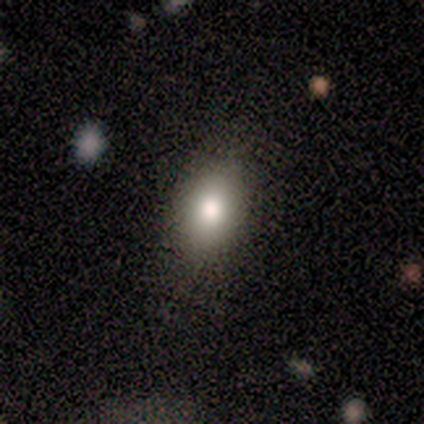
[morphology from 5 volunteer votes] Volunteers were most divided on "merging": none: 60%, major disturbance: 20%, merger: 20%, minor disturbance: 0%. More confident: how rounded — in between (100%); smooth or featured — smooth (80%).